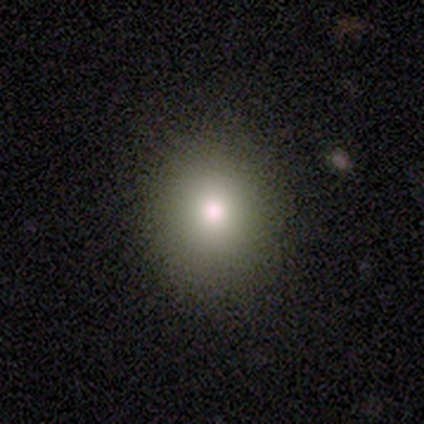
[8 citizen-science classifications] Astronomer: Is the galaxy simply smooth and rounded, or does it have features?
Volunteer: smooth — 100%.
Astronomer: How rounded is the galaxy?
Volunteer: round — 75%.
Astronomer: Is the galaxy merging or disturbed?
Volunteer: none — 100%.